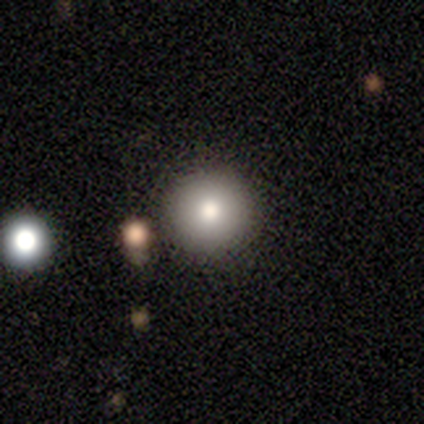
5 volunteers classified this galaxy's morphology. This appears to be a smooth galaxy with no disk features (100%) that is round (100%). Merging: none (80%).